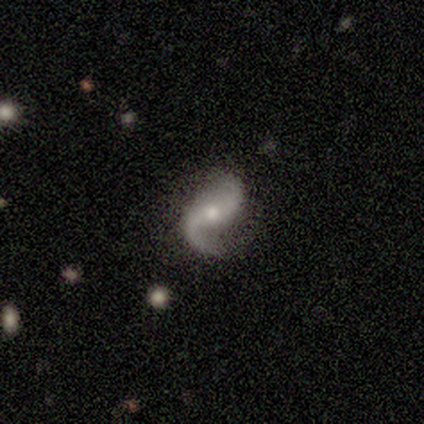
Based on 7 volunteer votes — featured or disk 100%, smooth 0%, star or artifact 0%. Down the decision tree: edge-on disk — no (100%); bar — no (71%); spiral arms — yes (100%); spiral arm count — 2 (100%); spiral winding — loose (71%); bulge size — small (57%); merging — none (86%).